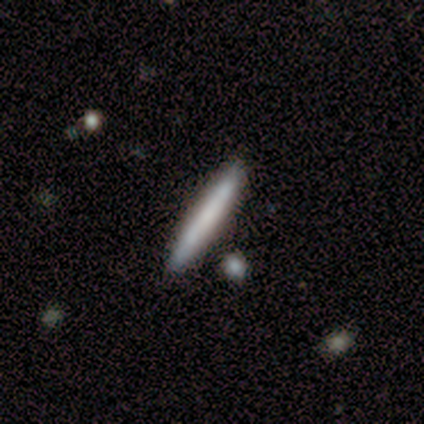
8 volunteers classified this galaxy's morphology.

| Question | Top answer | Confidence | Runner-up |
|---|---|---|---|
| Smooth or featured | smooth | 88% | featured or disk (12%) |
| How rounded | cigar-shaped | 100% | — |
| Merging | none | 100% | — |